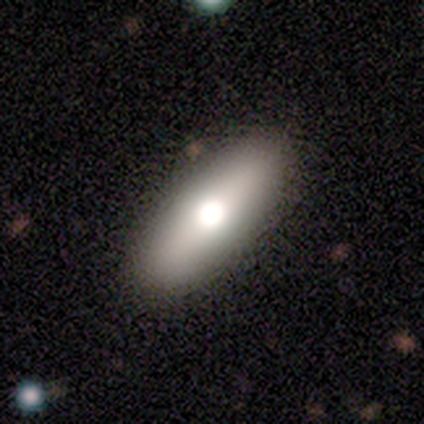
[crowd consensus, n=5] A featured or disk galaxy (60%) with no bar (100%), no spiral arms (100%) and a large central bulge (50%, tied with small).

Vote fractions:
- Smooth or featured? featured or disk: 60% / smooth: 40% / star or artifact: 0%
- Edge-on disk? no: 67% / yes: 33%
- Bar? no: 100% / strong: 0% / weak: 0%
- Spiral arms? no: 100% / yes: 0%
- Bulge size? large: 50% (tied) / small: 50% (tied) / dominant: 0% / moderate: 0% / none: 0%
- Merging? none: 80% / minor disturbance: 20% / major disturbance: 0% / merger: 0%